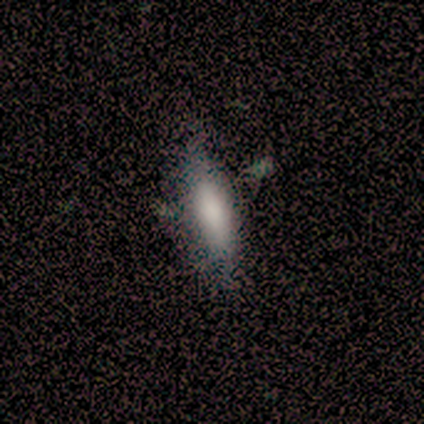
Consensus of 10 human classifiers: Volunteers were most divided on "how rounded": in between: 67%, cigar-shaped: 33%, round: 0%. More confident: merging — none (75%); smooth or featured — smooth (60%).